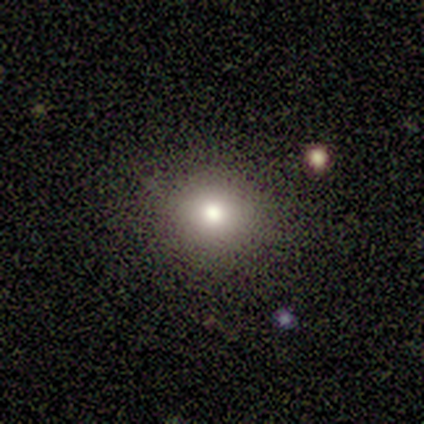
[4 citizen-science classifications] A smooth galaxy with no disk features (75%) that is round (67%).

Vote fractions:
- Smooth or featured? smooth: 75% / star or artifact: 25% / featured or disk: 0%
- How rounded? round: 67% / in between: 33% / cigar-shaped: 0%
- Merging? none: 67% / minor disturbance: 33% / major disturbance: 0% / merger: 0%